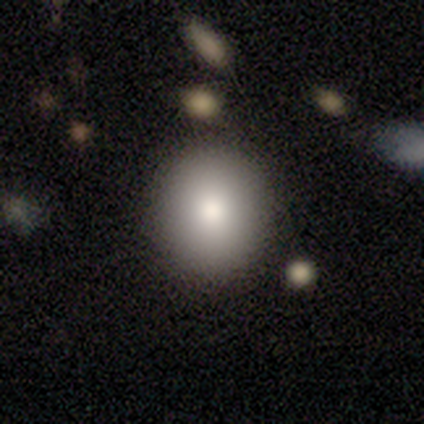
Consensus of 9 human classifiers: Smooth or featured? 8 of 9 (89%) said smooth. How rounded? 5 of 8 (62%) said round. Merging? 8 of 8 (100%) said none.